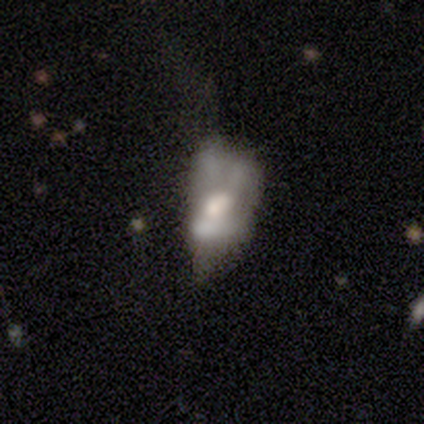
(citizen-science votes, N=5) Smooth or featured?
  - featured or disk: 60% *
  - smooth: 40%
  - star or artifact: 0%
Edge-on disk?
  - no: 100% *
  - yes: 0%
Bar?
  - no: 67% *
  - weak: 33%
  - strong: 0%
Spiral arms?
  - no: 100% *
  - yes: 0%
Bulge size?
  - moderate: 67% *
  - small: 33%
  - dominant: 0%
  - large: 0%
  - none: 0%
Merging?
  - major disturbance: 40% *
  - none: 20%
  - minor disturbance: 20%
  - merger: 20%